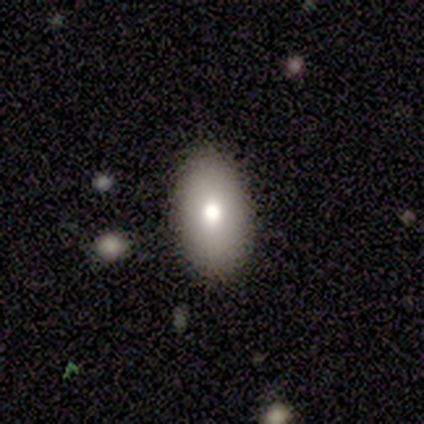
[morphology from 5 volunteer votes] smooth 100%, featured or disk 0%, star or artifact 0%. Down the decision tree: how rounded — in between (80%); merging — none (80%).